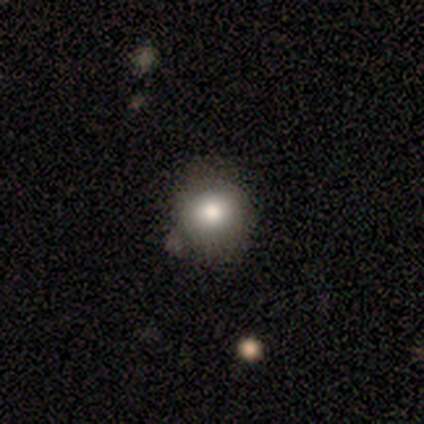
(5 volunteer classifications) Morphology: type=smooth (80%); roundness=round (100%); merging=none (80%).